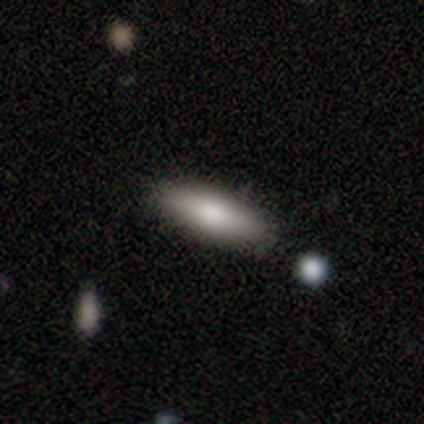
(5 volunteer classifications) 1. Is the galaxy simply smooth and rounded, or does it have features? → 80% smooth, 20% featured or disk, 0% star or artifact.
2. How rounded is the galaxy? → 50% in between (tied), 50% cigar-shaped (tied), 0% round.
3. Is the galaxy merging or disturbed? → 100% none, 0% minor disturbance, 0% major disturbance, 0% merger.